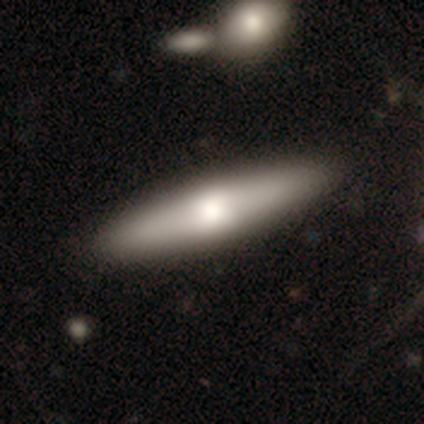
Volunteers were most divided on "smooth or featured": smooth: 71%, featured or disk: 27%, star or artifact: 2%. More confident: how rounded — cigar-shaped (83%); merging — none (80%).